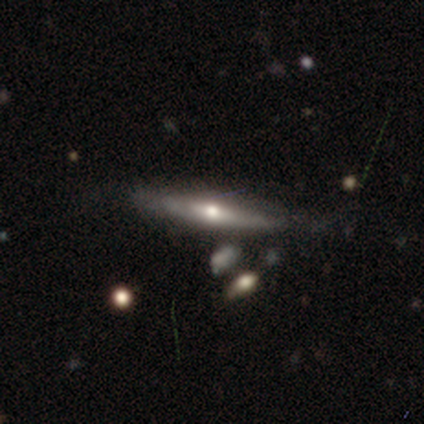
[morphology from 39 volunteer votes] A featured or disk galaxy (77%) viewed edge-on (97%) with a rounded central bulge (79%). Merging: none (74%).